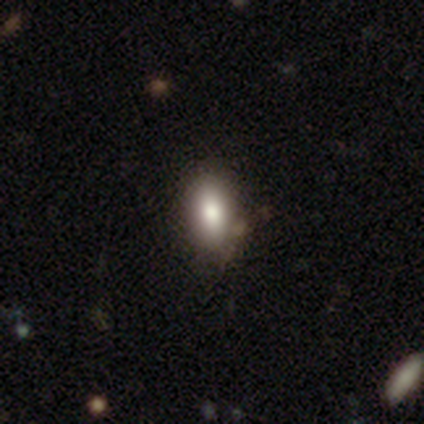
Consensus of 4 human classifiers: Overall: smooth (75%). How rounded: in between (100%). Merging: none (33%, tied with minor disturbance and major disturbance).